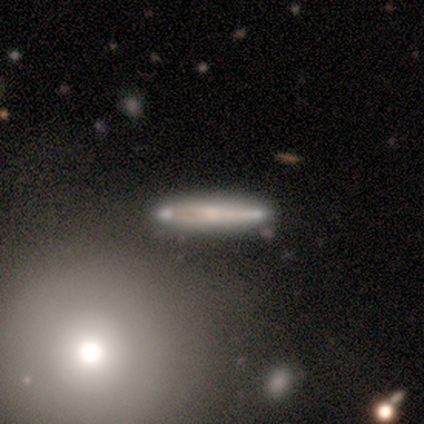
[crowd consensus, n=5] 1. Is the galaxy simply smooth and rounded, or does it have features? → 80% smooth, 20% featured or disk, 0% star or artifact.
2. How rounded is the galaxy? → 75% cigar-shaped, 25% in between, 0% round.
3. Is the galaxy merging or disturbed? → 60% none, 20% minor disturbance, 20% merger, 0% major disturbance.